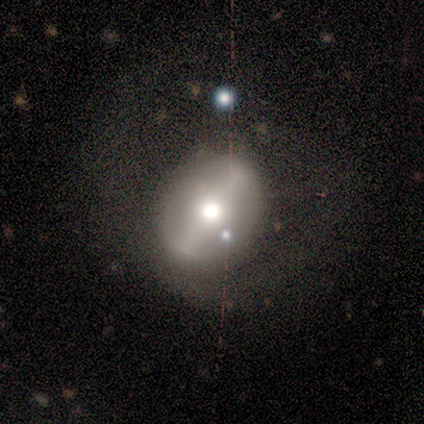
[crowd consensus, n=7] Smooth or featured? featured or disk (71%)
Edge-on disk? no (80%)
Bar? strong (75%)
Spiral arms? no (75%)
Bulge size? moderate (75%)
Merging? none (43%, tied with minor disturbance)